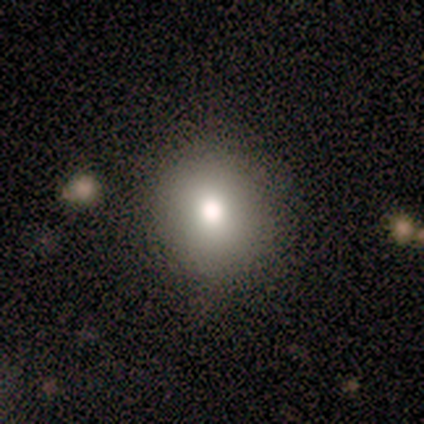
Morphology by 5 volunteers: A smooth galaxy with no disk features (80%) that is round (100%). Merging: none (100%).